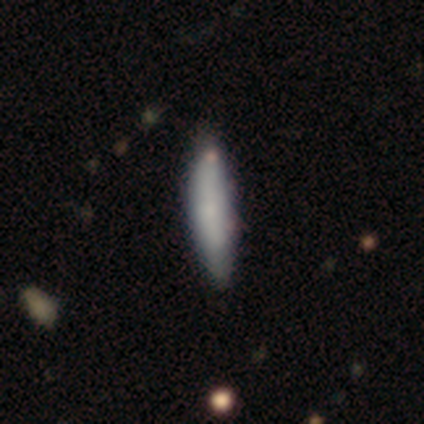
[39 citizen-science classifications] A smooth galaxy with no disk features (79%) that is cigar-shaped (90%). Merging: none (41%).